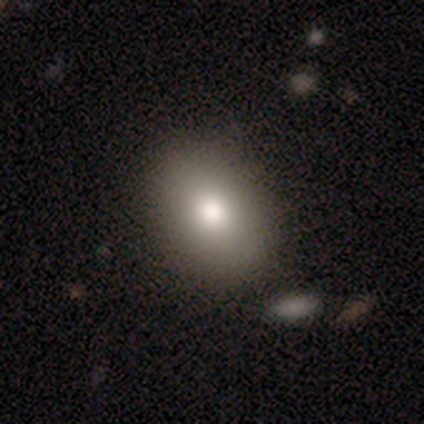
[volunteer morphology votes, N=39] smooth 79%, featured or disk 13%, star or artifact 8%. Down the decision tree: how rounded — in between (74%); merging — none (86%).